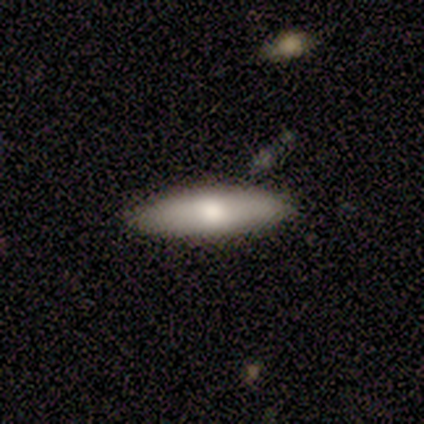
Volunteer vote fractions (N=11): smooth_or_featured: smooth (p=0.64) [alt: featured or disk p=0.36]
how_rounded: cigar-shaped (p=0.57) [alt: in between p=0.43]
merging: none (p=0.73) [alt: minor disturbance p=0.27]